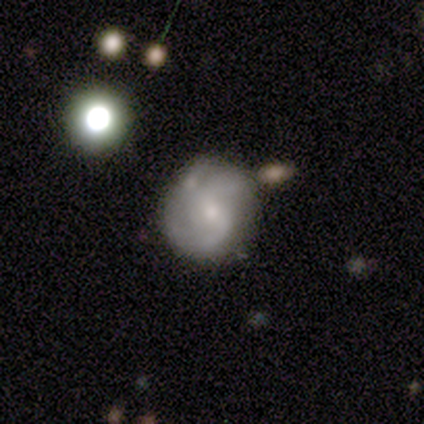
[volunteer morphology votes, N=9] Smooth or featured: featured or disk — 89% (star or artifact — 11%)
Edge-on disk: no — 88% (yes — 12%)
Bar: weak — 71% (no — 29%)
Spiral arms: yes — 100%
Spiral winding: medium — 71% (loose — 29%)
Spiral arm count: 2 — 29% (tied with can't tell — 29%)
Bulge size: small — 71% (moderate — 29%)
Merging: none — 62% (minor disturbance — 25%)